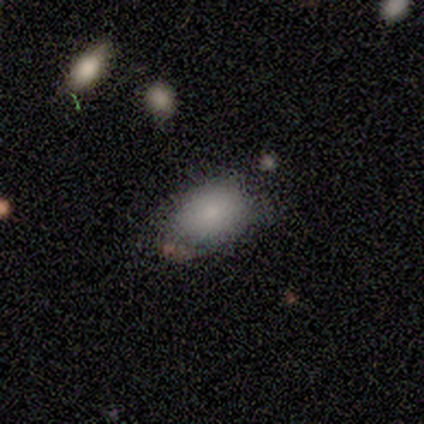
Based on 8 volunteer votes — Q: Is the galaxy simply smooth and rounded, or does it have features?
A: smooth — 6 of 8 (75%).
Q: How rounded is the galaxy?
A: in between — 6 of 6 (100%).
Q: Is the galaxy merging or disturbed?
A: none — 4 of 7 (57%).